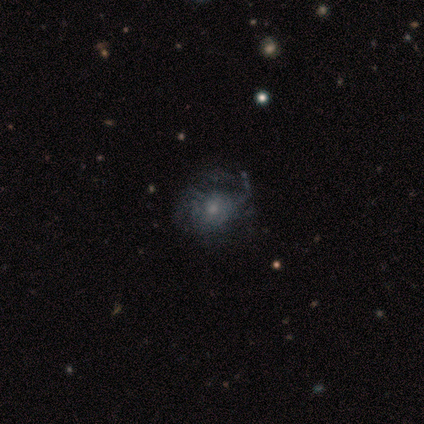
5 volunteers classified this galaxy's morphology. Smooth or featured? featured or disk (80%)
Edge-on disk? no (100%)
Bar? no (75%)
Spiral arms? yes (75%)
Spiral winding? loose (67%)
Spiral arm count? can't tell (67%)
Bulge size? moderate (50%)
Merging? minor disturbance (40%)